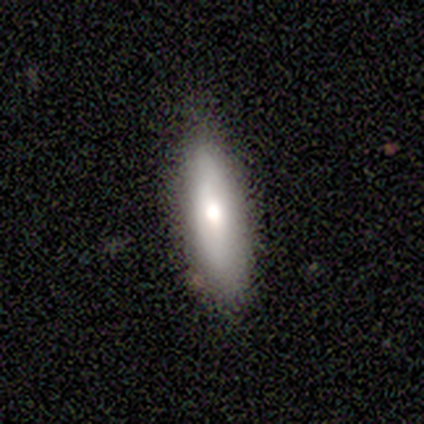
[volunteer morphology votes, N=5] type=smooth (60%); roundness=cigar-shaped (67%); merging=none (80%).